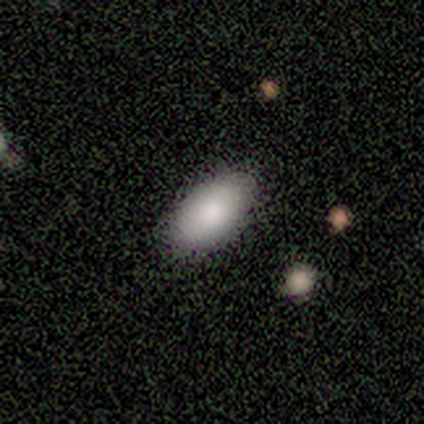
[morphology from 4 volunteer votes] smooth 75%, featured or disk 25%, star or artifact 0%. Down the decision tree: how rounded — in between (100%); merging — none (100%).